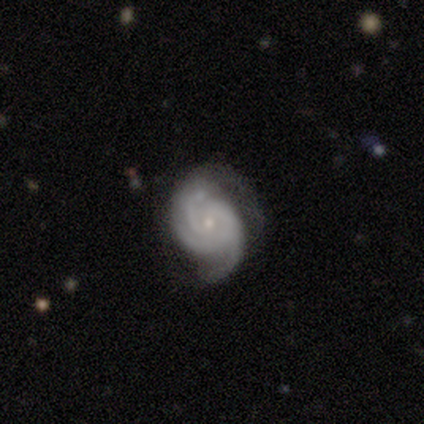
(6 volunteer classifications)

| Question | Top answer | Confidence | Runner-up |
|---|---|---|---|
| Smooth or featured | featured or disk | 100% | — |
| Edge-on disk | no | 100% | — |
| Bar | no | 67% | weak (33%) |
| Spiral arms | yes | 100% | — |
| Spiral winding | tight | 83% | medium (17%) |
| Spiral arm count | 3 | 83% | 4 (17%) |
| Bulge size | small | 83% | moderate (17%) |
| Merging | none | 83% | minor disturbance (17%) |